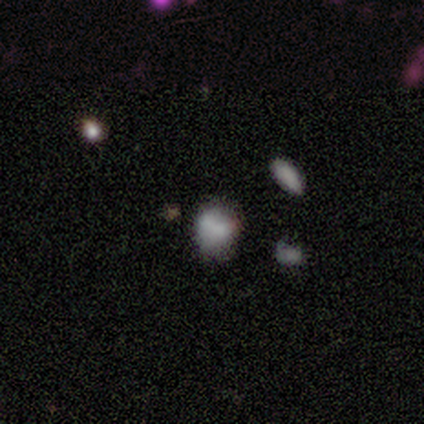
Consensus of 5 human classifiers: A smooth galaxy with no disk features (60%) that is in between round and cigar-shaped (67%).

Vote fractions:
- Smooth or featured? smooth: 60% / featured or disk: 40% / star or artifact: 0%
- How rounded? in between: 67% / round: 33% / cigar-shaped: 0%
- Merging? none: 60% / merger: 40% / minor disturbance: 0% / major disturbance: 0%